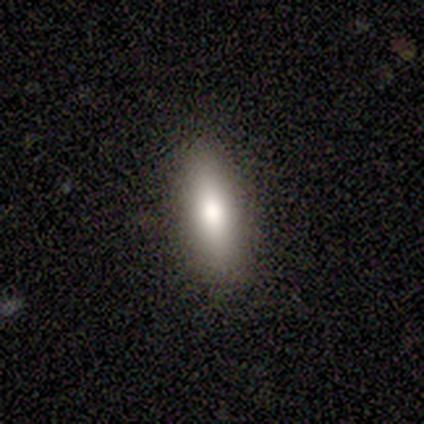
This appears to be a smooth galaxy with no disk features (100%) that is cigar-shaped (75%). Merging: none (75%).